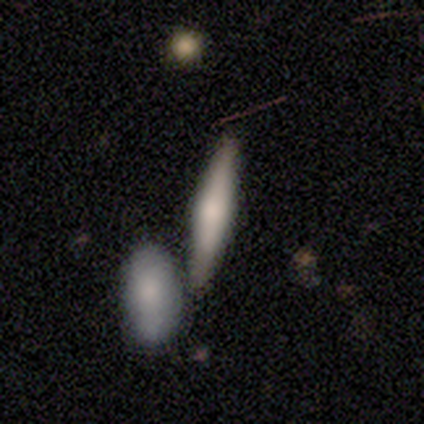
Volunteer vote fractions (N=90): smooth 60%, featured or disk 34%, star or artifact 6%. Down the decision tree: how rounded — cigar-shaped (83%); merging — none (49%).